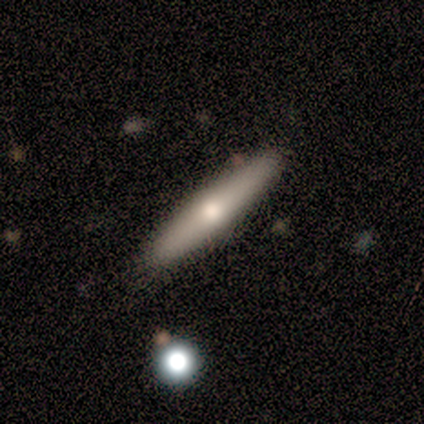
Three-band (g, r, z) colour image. It shows a smooth galaxy with no disk features (65%) that is cigar-shaped (82%). Merging: none (94%).